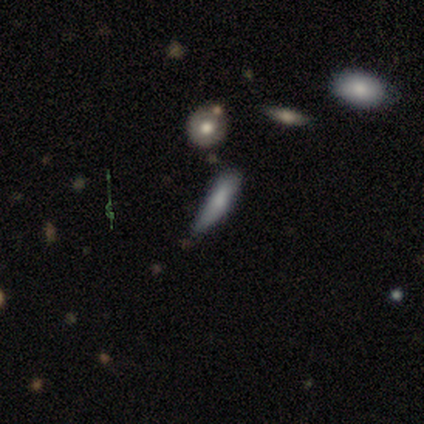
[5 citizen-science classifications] Morphology: type=smooth (60%); roundness=cigar-shaped (100%); merging=minor disturbance (50%, tied with major disturbance).